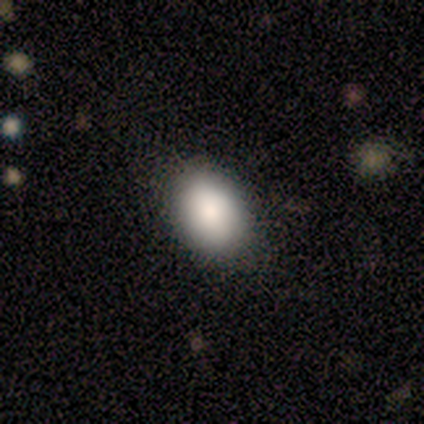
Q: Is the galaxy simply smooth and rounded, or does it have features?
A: smooth — 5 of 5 (100%).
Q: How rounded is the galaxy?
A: in between — 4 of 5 (80%).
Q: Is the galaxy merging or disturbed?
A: none — 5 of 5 (100%).